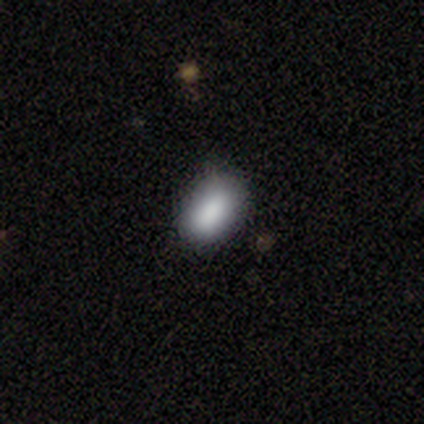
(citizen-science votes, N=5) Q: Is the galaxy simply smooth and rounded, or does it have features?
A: smooth — 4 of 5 (80%).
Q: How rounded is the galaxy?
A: in between — 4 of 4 (100%).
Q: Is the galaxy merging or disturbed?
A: none — 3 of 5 (60%).